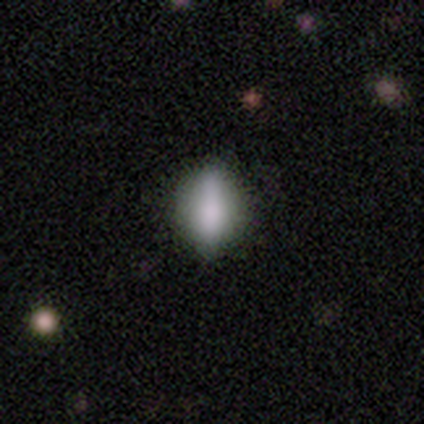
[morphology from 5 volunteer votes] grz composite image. It shows a smooth galaxy with no disk features (80%) that is in between round and cigar-shaped (50%). Merging: none (80%).